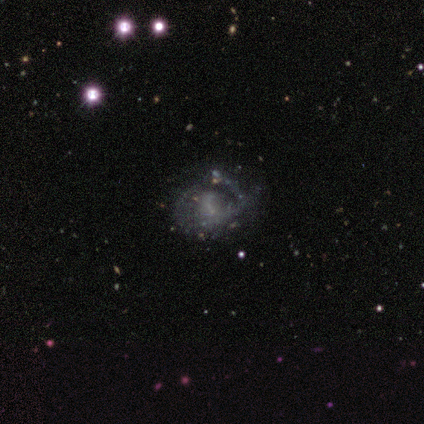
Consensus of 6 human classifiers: Q: Smooth or featured?
A: featured or disk (100%)
Q: Edge-on disk?
A: no (100%)
Q: Bar?
A: no (67%); runner-up: weak (33%)
Q: Spiral arms?
A: yes (100%)
Q: Spiral winding?
A: tight (33%); tied with: medium (33%); loose (33%)
Q: Spiral arm count?
A: 1 (50%); tied with: can't tell (50%)
Q: Bulge size?
A: small (50%); runner-up: none (33%)
Q: Merging?
A: none (83%); runner-up: minor disturbance (17%)